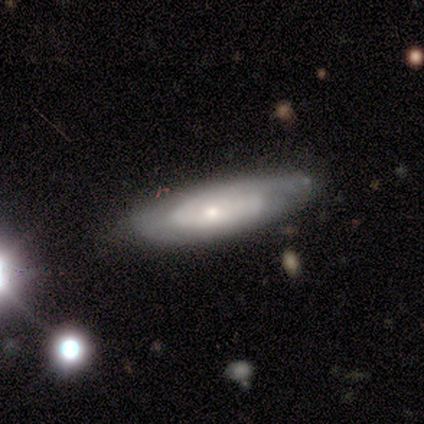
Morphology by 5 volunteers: Smooth or featured?
  - featured or disk: 60% *
  - smooth: 40%
  - star or artifact: 0%
Edge-on disk?
  - no: 100% *
  - yes: 0%
Bar?
  - no: 100% *
  - strong: 0%
  - weak: 0%
Spiral arms?
  - yes: 67% *
  - no: 33%
Spiral winding?
  - tight: 50% * (tied)
  - loose: 50% * (tied)
  - medium: 0%
Spiral arm count?
  - 2: 50% * (tied)
  - can't tell: 50% * (tied)
  - 1: 0%
  - 3: 0%
  - 4: 0%
  - more than 4: 0%
Bulge size?
  - small: 67% *
  - moderate: 33%
  - dominant: 0%
  - large: 0%
  - none: 0%
Merging?
  - none: 80% *
  - major disturbance: 20%
  - minor disturbance: 0%
  - merger: 0%